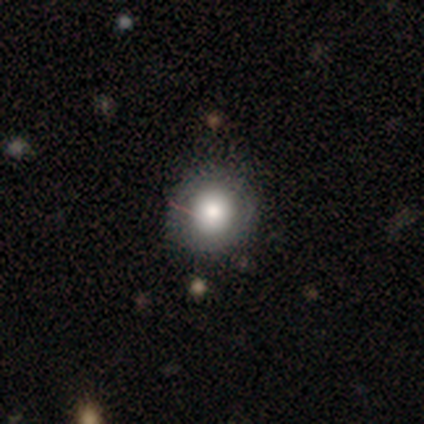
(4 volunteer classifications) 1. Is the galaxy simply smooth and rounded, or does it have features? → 75% smooth, 25% star or artifact, 0% featured or disk.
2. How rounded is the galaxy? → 100% round, 0% in between, 0% cigar-shaped.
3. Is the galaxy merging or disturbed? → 67% none, 33% minor disturbance, 0% major disturbance, 0% merger.